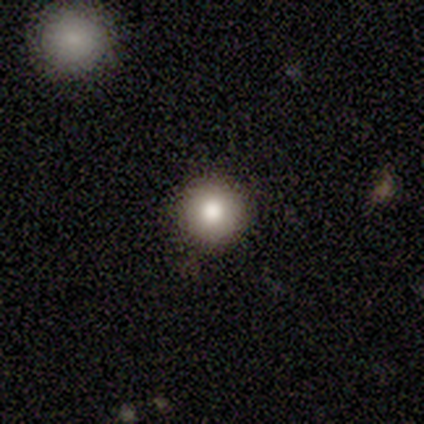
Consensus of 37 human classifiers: Smooth or featured? 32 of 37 (86%) said smooth. How rounded? 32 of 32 (100%) said round. Merging? 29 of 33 (88%) said none.